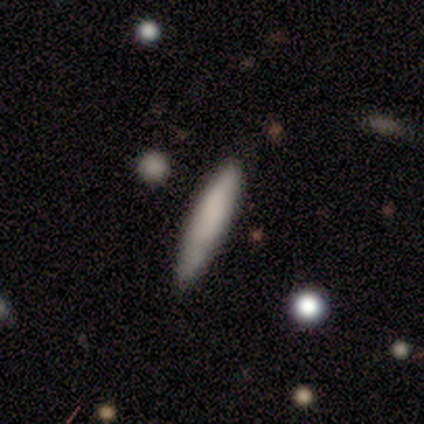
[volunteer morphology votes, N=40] type=smooth (78%); roundness=cigar-shaped (84%); merging=none (57%).